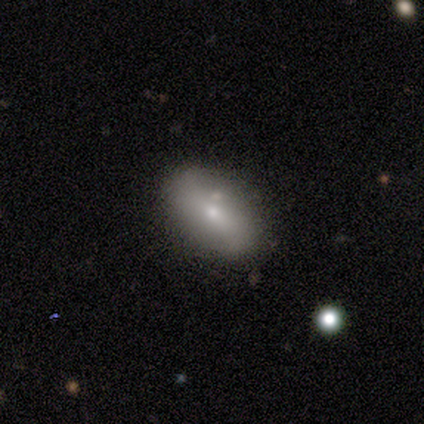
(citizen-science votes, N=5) Smooth or featured? 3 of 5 (60%) said featured or disk. Edge-on disk? 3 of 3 (100%) said no. Bar? 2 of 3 (67%) said weak. Spiral arms? 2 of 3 (67%) said yes. Spiral winding? 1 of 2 (50%, tied with loose) said tight. Spiral arm count? 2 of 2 (100%) said 2. Bulge size? 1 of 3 (33%, tied with moderate and small) said dominant. Merging? 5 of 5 (100%) said none.